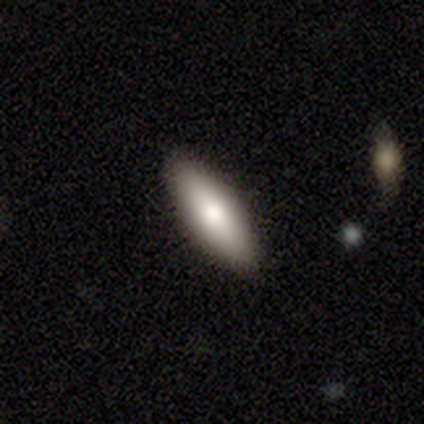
Smooth or featured: smooth — 67% (featured or disk — 28%)
How rounded: in between — 73% (cigar-shaped — 27%)
Merging: none — 95% (minor disturbance — 5%)